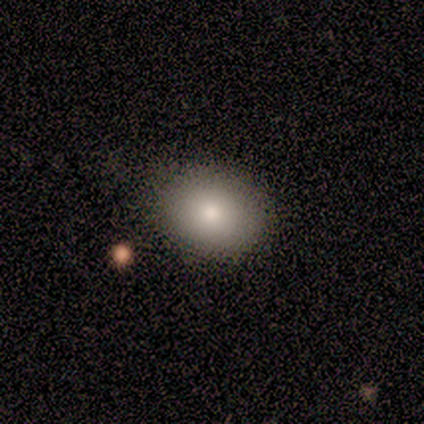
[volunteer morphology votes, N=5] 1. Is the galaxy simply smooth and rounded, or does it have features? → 80% smooth, 20% star or artifact, 0% featured or disk.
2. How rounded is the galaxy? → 75% in between, 25% round, 0% cigar-shaped.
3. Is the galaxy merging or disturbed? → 100% none, 0% minor disturbance, 0% major disturbance, 0% merger.